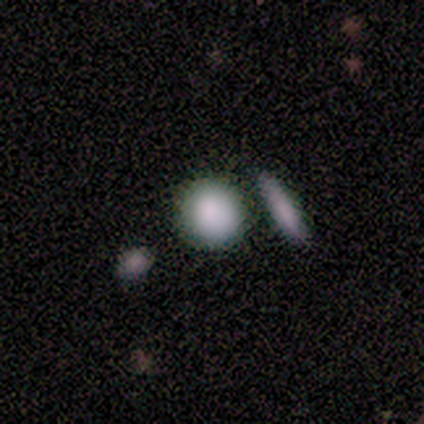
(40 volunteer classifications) This is clearly a smooth galaxy (82%). How rounded: clearly round (91%). Merging: likely none (68%).